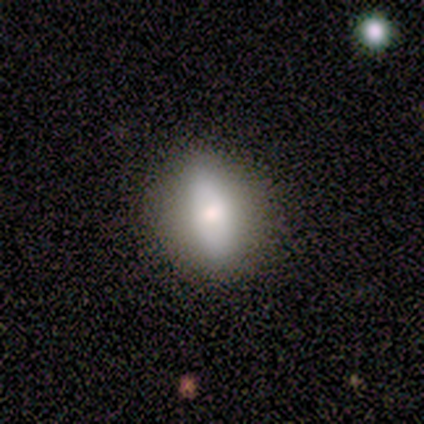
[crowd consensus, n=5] smooth_or_featured: featured or disk (p=0.60) [alt: star or artifact p=0.40]
disk_edge_on: no (p=0.67) [alt: yes p=0.33]
bar: strong (p=0.50) [tied with: no p=0.50]
has_spiral_arms: no (p=1.00)
bulge_size: large (p=0.50) [tied with: small p=0.50]
merging: none (p=1.00)